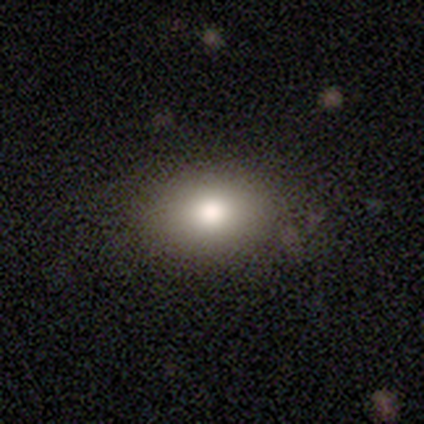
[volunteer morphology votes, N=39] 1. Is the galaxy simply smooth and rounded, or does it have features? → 79% smooth, 15% featured or disk, 5% star or artifact.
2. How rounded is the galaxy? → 65% in between, 35% round, 0% cigar-shaped.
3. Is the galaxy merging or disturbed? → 92% none, 5% merger, 3% minor disturbance, 0% major disturbance.